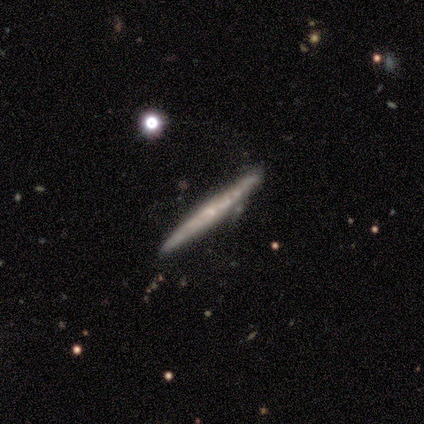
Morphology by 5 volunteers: featured or disk 60%, smooth 40%, star or artifact 0%. Down the decision tree: edge-on disk — yes (67%); edge-on bulge — none (50%, tied with rounded); merging — none (60%).